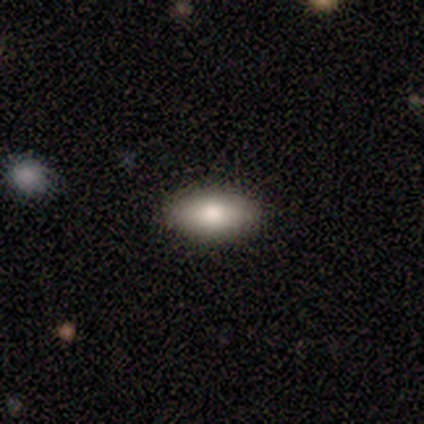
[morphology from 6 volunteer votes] smooth-or-featured: smooth: 100% | featured or disk: 0% | star or artifact: 0%
  how-rounded: in between: 100% | round: 0% | cigar-shaped: 0%
  merging: none: 83% | minor disturbance: 17% | major disturbance: 0% | merger: 0%